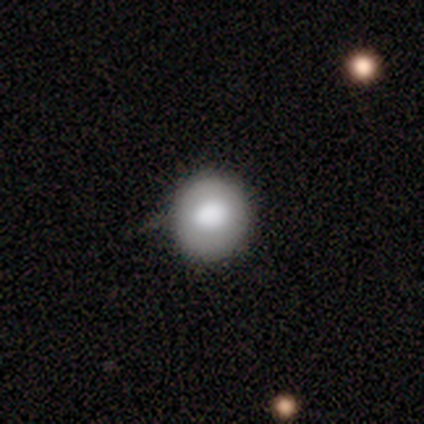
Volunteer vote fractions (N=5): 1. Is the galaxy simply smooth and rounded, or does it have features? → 100% smooth, 0% featured or disk, 0% star or artifact.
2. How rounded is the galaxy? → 80% round, 20% in between, 0% cigar-shaped.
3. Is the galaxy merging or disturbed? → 100% none, 0% minor disturbance, 0% major disturbance, 0% merger.